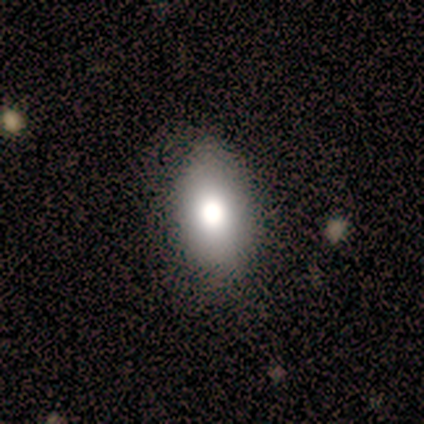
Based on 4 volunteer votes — Overall: smooth (75%). How rounded: in between (67%; cigar-shaped 33%). Merging: none (100%).